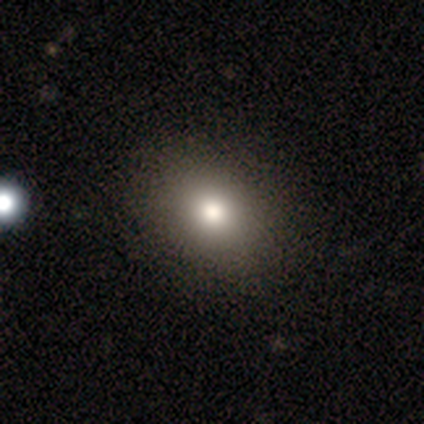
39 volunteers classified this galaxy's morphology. This appears to be a smooth galaxy with no disk features (77%) that is in between round and cigar-shaped (57%). Merging: none (71%).